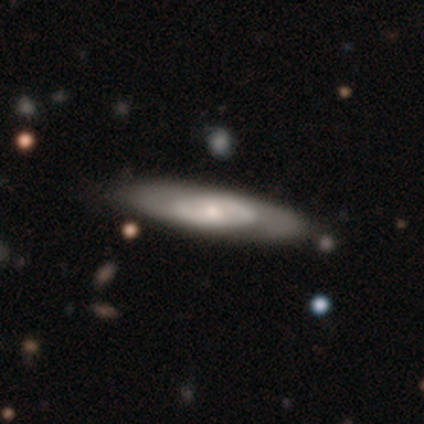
This is likely a featured or disk galaxy (71%). It is likely not viewed edge-on (60%). Bar: clearly no (100%). Spiral arm pattern: clearly no (100%). Central bulge: marginally dominant (33%, tied with moderate and small). Merging: possibly none (57%).